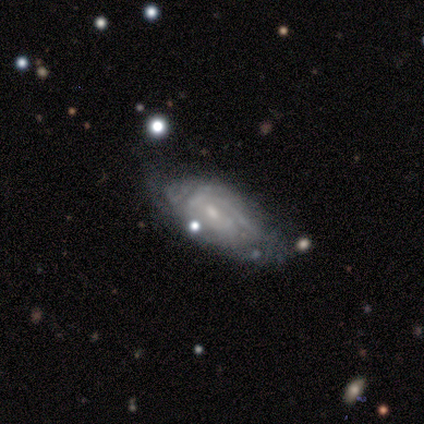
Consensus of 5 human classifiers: Smooth or featured: featured or disk — 80% (smooth — 20%)
Edge-on disk: no — 100%
Bar: weak — 50% (tied with no — 50%)
Spiral arms: yes — 75% (no — 25%)
Spiral winding: tight — 100%
Spiral arm count: can't tell — 67% (4 — 33%)
Bulge size: moderate — 50% (small — 25%)
Merging: none — 40% (tied with minor disturbance — 40%)